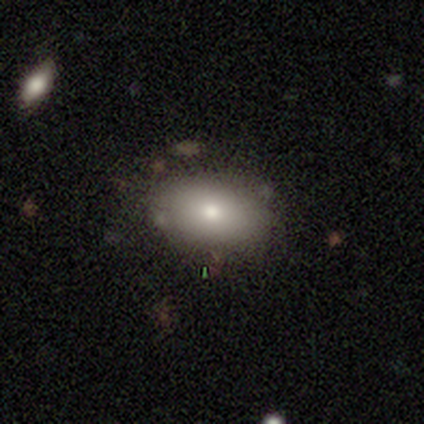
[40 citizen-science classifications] Smooth or featured?
  - smooth: 82% *
  - star or artifact: 10%
  - featured or disk: 8%
How rounded?
  - in between: 94% *
  - round: 6%
  - cigar-shaped: 0%
Merging?
  - none: 81% *
  - minor disturbance: 11%
  - merger: 6%
  - major disturbance: 3%